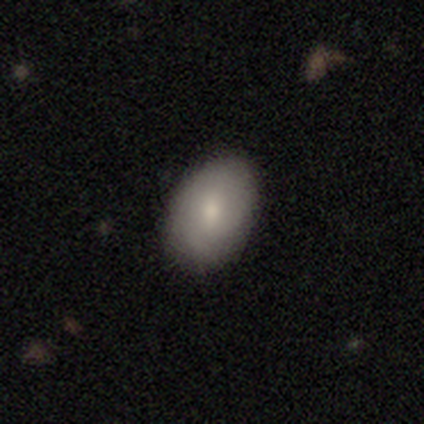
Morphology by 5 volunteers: smooth-or-featured: smooth: 100% | featured or disk: 0% | star or artifact: 0%
  how-rounded: in between: 100% | round: 0% | cigar-shaped: 0%
  merging: none: 100% | minor disturbance: 0% | major disturbance: 0% | merger: 0%